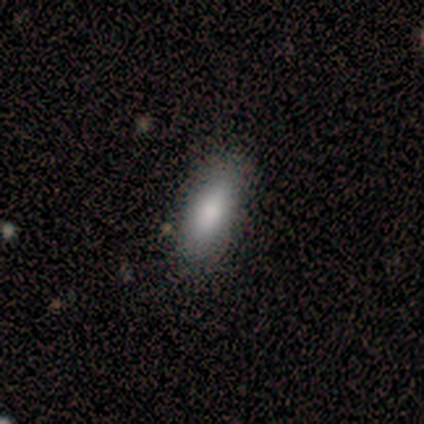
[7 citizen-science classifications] This appears to be a smooth galaxy with no disk features (86%) that is in between round and cigar-shaped (83%). Merging: none (86%).